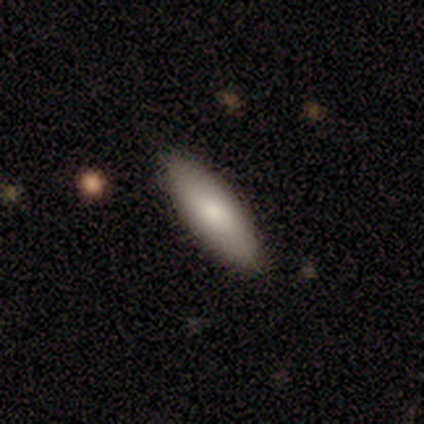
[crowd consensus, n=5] Smooth or featured? 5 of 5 (100%) said smooth. How rounded? 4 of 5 (80%) said in between. Merging? 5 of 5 (100%) said none.